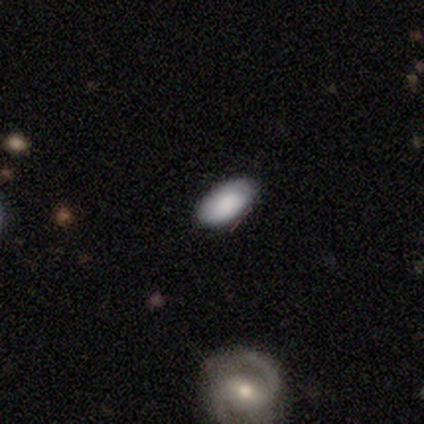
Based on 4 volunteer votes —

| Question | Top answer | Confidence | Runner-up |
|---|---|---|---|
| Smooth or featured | smooth | 50% | featured or disk (25%) |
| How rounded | in between | 100% | — |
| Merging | none | 100% | — |